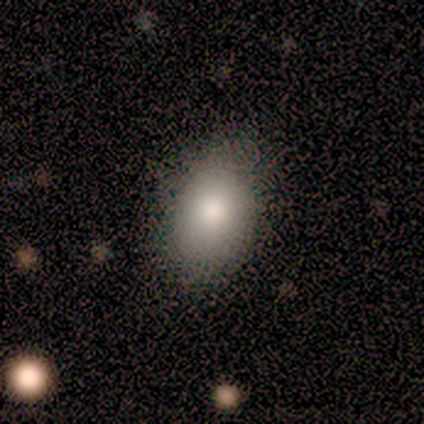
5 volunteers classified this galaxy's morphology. This is clearly a smooth galaxy (80%). How rounded: likely in between (75%). Merging: clearly none (100%).